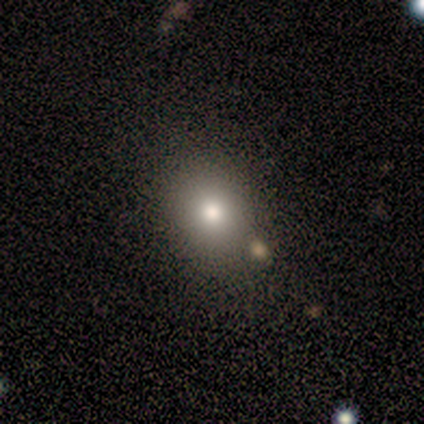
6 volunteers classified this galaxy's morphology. Volunteers were most divided on "smooth or featured" (2-way tie): smooth: 50%, featured or disk: 50%, star or artifact: 0%. More confident: merging — none (83%); how rounded — in between (67%).